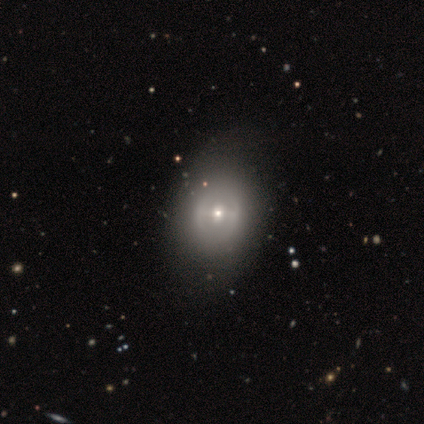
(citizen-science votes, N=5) Volunteers were most divided on "spiral winding" (2-way tie): medium: 50%, loose: 50%, tight: 0%. More confident: edge-on disk — no (100%); spiral arm count — 2 (100%); merging — none (80%); bar — strong (67%); spiral arms — yes (67%); bulge size — moderate (67%); smooth or featured — featured or disk (60%).